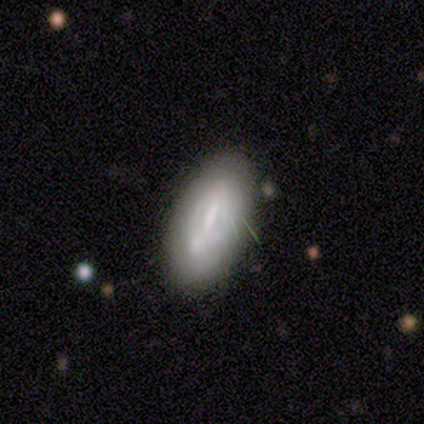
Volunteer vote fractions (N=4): smooth_or_featured: smooth (p=0.50) [tied with: featured or disk p=0.50]
how_rounded: in between (p=1.00)
merging: none (p=0.75) [alt: minor disturbance p=0.25]